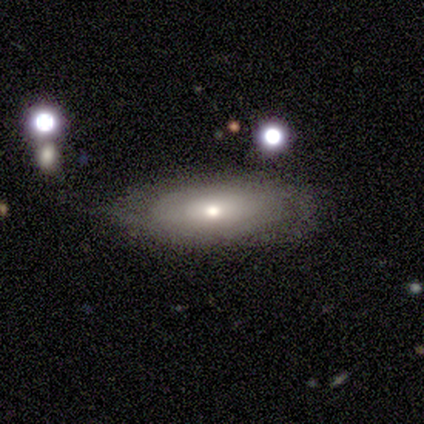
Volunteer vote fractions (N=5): A smooth galaxy with no disk features (60%) that is in between round and cigar-shaped (100%).

Vote fractions:
- Smooth or featured? smooth: 60% / featured or disk: 40% / star or artifact: 0%
- How rounded? in between: 100% / round: 0% / cigar-shaped: 0%
- Merging? none: 100% / minor disturbance: 0% / major disturbance: 0% / merger: 0%